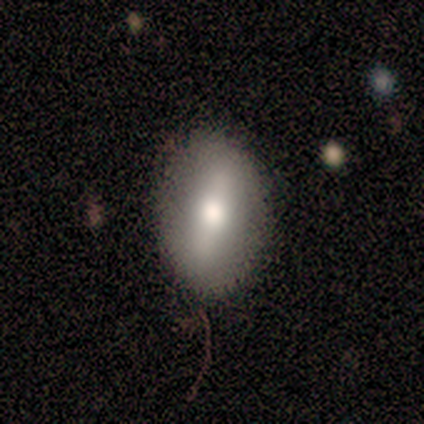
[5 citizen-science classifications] This is clearly a smooth galaxy (80%). How rounded: clearly in between (100%). Merging: clearly none (80%).